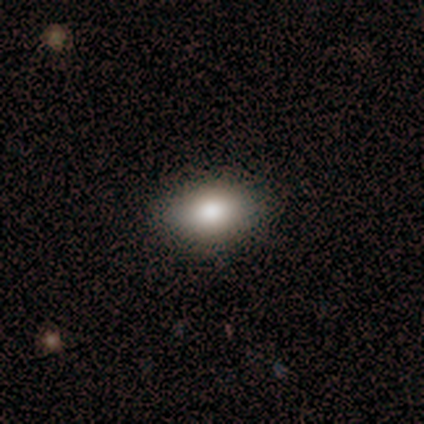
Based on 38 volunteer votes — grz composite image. It shows a smooth galaxy with no disk features (74%) that is in between round and cigar-shaped (82%). Merging: none (85%).